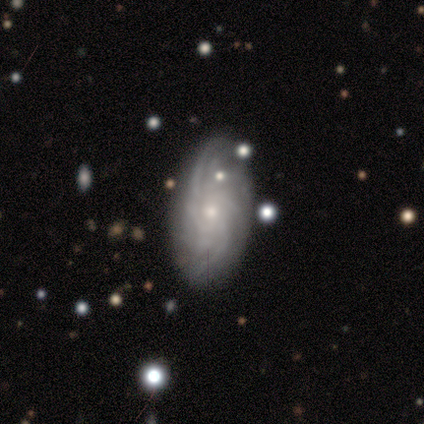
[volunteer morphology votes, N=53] A featured or disk galaxy (94%) with no bar (78%), more than 4 (40%) tight (50%) spiral arms (100%) and a small central bulge (76%).

Vote fractions:
- Smooth or featured? featured or disk: 94% / smooth: 4% / star or artifact: 2%
- Edge-on disk? no: 100% / yes: 0%
- Bar? no: 78% / weak: 20% / strong: 2%
- Spiral arms? yes: 100% / no: 0%
- Spiral winding? tight: 50% / medium: 38% / loose: 12%
- Spiral arm count? more than 4: 40% / can't tell: 32% / 3: 12% / 4: 10% / 2: 6% / 1: 0%
- Bulge size? small: 76% / moderate: 24% / dominant: 0% / large: 0% / none: 0%
- Merging? none: 75% / minor disturbance: 23% / major disturbance: 2% / merger: 0%